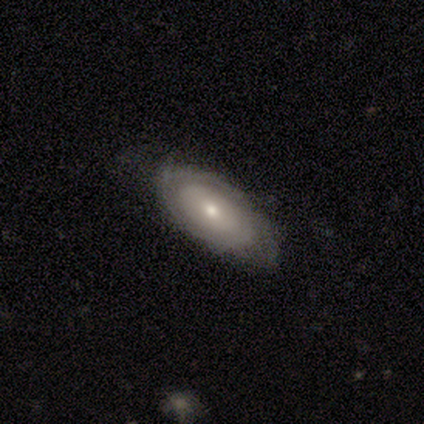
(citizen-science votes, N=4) A featured or disk galaxy (100%) with no bar (75%), 2 (100%) tight (50%, tied with medium) spiral arms (50%, tied with no) and a moderate central bulge (50%, tied with small).

Vote fractions:
- Smooth or featured? featured or disk: 100% / smooth: 0% / star or artifact: 0%
- Edge-on disk? no: 100% / yes: 0%
- Bar? no: 75% / weak: 25% / strong: 0%
- Spiral arms? yes: 50% (tied) / no: 50% (tied)
- Spiral winding? tight: 50% (tied) / medium: 50% (tied) / loose: 0%
- Spiral arm count? 2: 100% / 1: 0% / 3: 0% / 4: 0% / more than 4: 0% / can't tell: 0%
- Bulge size? moderate: 50% (tied) / small: 50% (tied) / dominant: 0% / large: 0% / none: 0%
- Merging? none: 50% (tied) / minor disturbance: 50% (tied) / major disturbance: 0% / merger: 0%